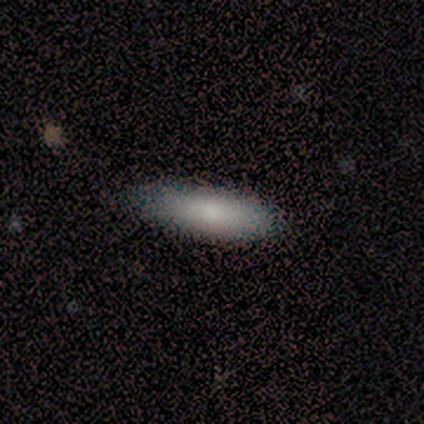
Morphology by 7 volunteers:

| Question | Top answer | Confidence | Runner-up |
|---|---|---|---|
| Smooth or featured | smooth | 86% | featured or disk (14%) |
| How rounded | cigar-shaped | 83% | in between (17%) |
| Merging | none | 100% | — |